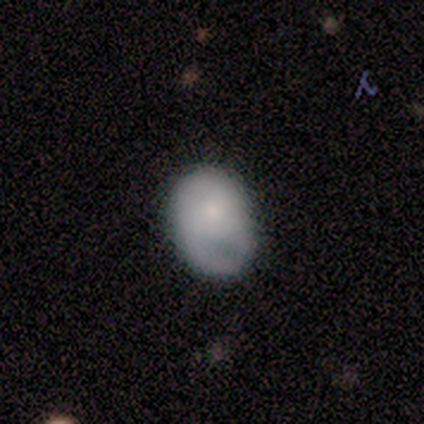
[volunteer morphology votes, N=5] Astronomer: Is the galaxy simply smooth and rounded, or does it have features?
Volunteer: smooth — 60% (runner-up: featured or disk, 40%).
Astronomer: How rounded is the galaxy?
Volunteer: in between — 67%.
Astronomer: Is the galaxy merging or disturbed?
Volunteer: none — 60%.